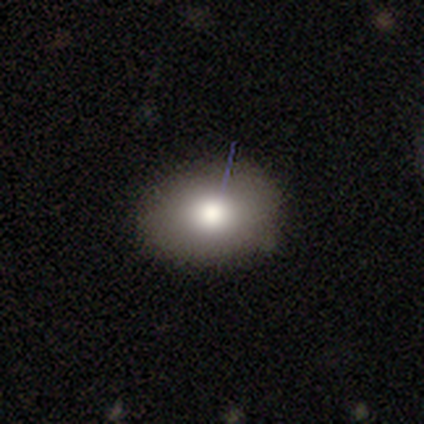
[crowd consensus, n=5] smooth_or_featured: smooth (p=0.80) [alt: featured or disk p=0.20]
how_rounded: in between (p=1.00)
merging: none (p=0.80) [alt: minor disturbance p=0.20]